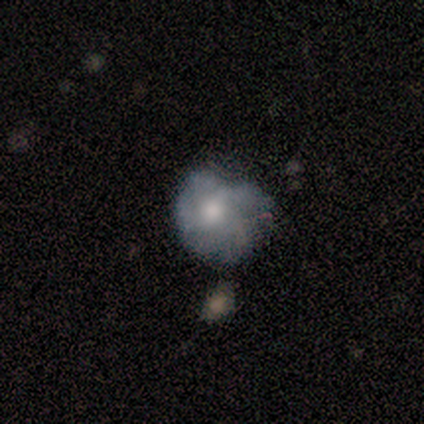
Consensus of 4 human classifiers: Smooth or featured? 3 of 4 (75%) said featured or disk. Edge-on disk? 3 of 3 (100%) said no. Bar? 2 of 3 (67%) said no. Spiral arms? 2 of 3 (67%) said yes. Spiral winding? 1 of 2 (50%, tied with loose) said tight. Spiral arm count? 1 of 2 (50%, tied with 4) said 3. Bulge size? 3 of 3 (100%) said moderate. Merging? 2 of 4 (50%) said major disturbance.